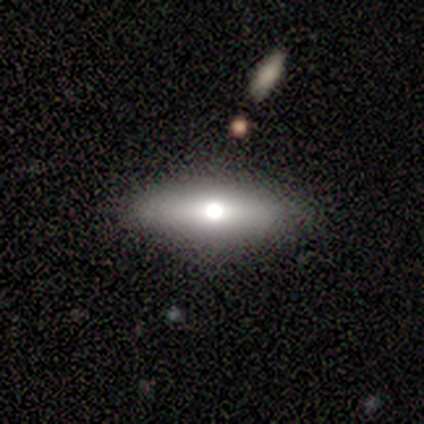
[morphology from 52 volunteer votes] Smooth or featured: smooth — 50% (featured or disk — 48%)
How rounded: cigar-shaped — 58% (in between — 38%)
Merging: none — 94% (minor disturbance — 4%)